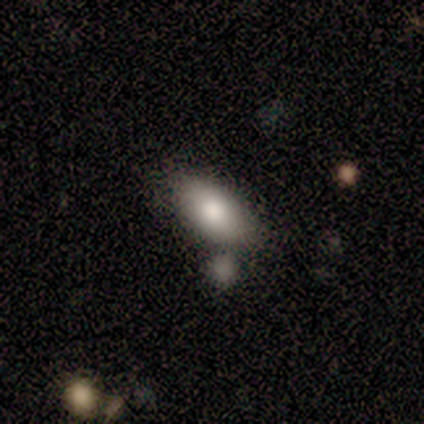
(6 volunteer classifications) smooth_or_featured: smooth (p=1.00)
how_rounded: in between (p=0.67) [alt: cigar-shaped p=0.33]
merging: none (p=0.67) [alt: minor disturbance p=0.17]